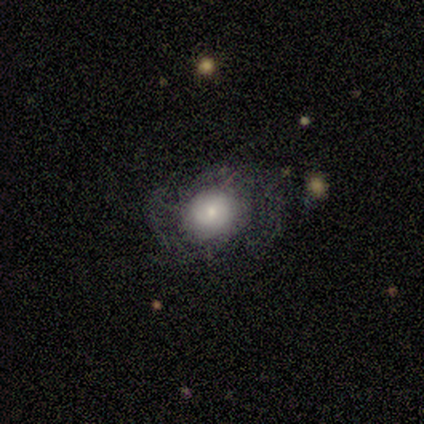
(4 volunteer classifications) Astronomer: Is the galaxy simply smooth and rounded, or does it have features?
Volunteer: smooth — 50%, tied with featured or disk at 50%.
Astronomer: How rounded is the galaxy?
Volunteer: round — 50%, tied with in between at 50%.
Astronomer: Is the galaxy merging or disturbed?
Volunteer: none — 50%.